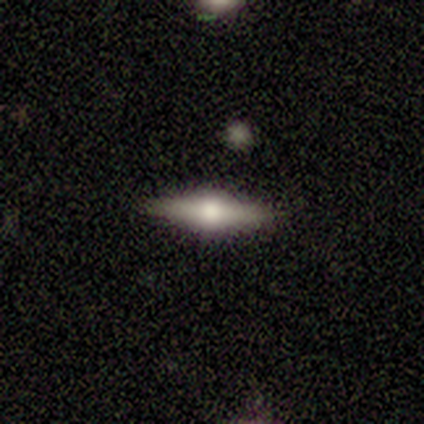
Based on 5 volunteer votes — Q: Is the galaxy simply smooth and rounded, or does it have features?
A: featured or disk — 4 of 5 (80%).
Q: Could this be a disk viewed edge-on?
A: yes — 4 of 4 (100%).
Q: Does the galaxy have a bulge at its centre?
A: rounded — 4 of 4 (100%).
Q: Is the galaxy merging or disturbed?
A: none — 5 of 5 (100%).